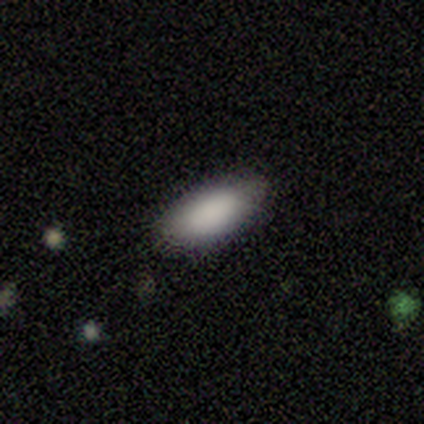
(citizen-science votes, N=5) A smooth galaxy with no disk features (100%) that is in between round and cigar-shaped (100%). Merging: none (60%).